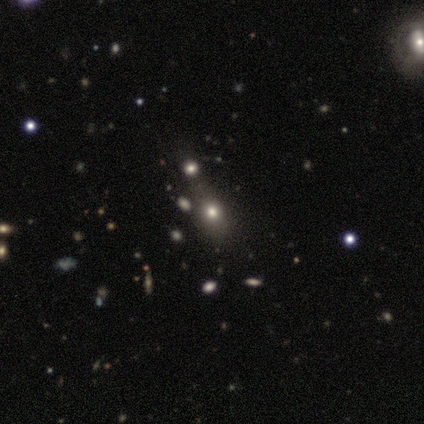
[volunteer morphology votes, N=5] Overall: smooth (40%, tied with star or artifact). How rounded: round (50%, tied with in between). Merging: none (67%; minor disturbance 33%).